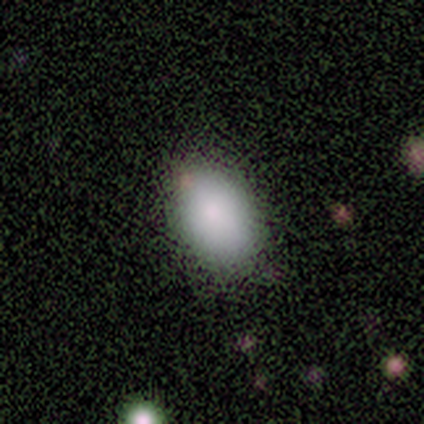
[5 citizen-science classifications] Smooth or featured?
  - smooth: 100% *
  - featured or disk: 0%
  - star or artifact: 0%
How rounded?
  - in between: 100% *
  - round: 0%
  - cigar-shaped: 0%
Merging?
  - none: 80% *
  - minor disturbance: 20%
  - major disturbance: 0%
  - merger: 0%